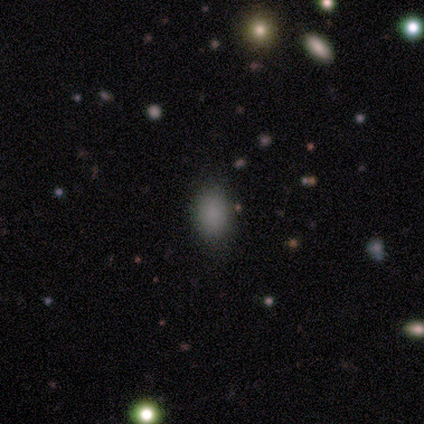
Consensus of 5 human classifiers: Q: Smooth or featured?
A: smooth (80%); runner-up: star or artifact (20%)
Q: How rounded?
A: in between (100%)
Q: Merging?
A: none (100%)